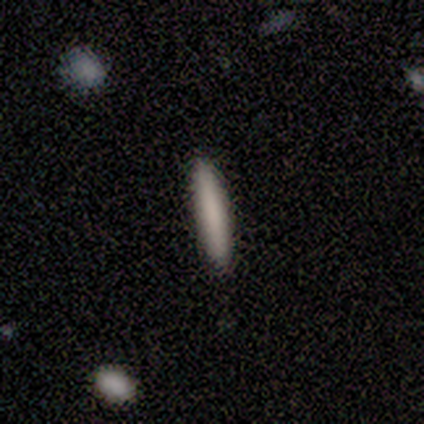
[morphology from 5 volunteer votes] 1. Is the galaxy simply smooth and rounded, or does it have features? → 80% smooth, 20% featured or disk, 0% star or artifact.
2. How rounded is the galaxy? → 100% cigar-shaped, 0% round, 0% in between.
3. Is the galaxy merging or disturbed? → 80% none, 20% minor disturbance, 0% major disturbance, 0% merger.